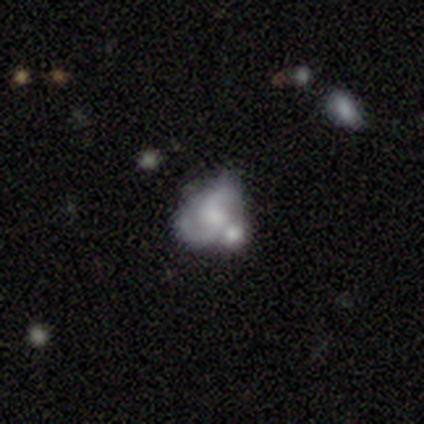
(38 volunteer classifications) A featured or disk galaxy (68%) with no bar (65%), 2 (90%) medium (57%) spiral arms (81%) and a small central bulge (38%).

Vote fractions:
- Smooth or featured? featured or disk: 68% / smooth: 21% / star or artifact: 11%
- Edge-on disk? no: 100% / yes: 0%
- Bar? no: 65% / weak: 31% / strong: 4%
- Spiral arms? yes: 81% / no: 19%
- Spiral winding? medium: 57% / loose: 38% / tight: 5%
- Spiral arm count? 2: 90% / 1: 5% / 3: 5% / 4: 0% / more than 4: 0% / can't tell: 0%
- Bulge size? small: 38% / moderate: 23% / none: 23% / large: 12% / dominant: 4%
- Merging? none: 35% (tied) / merger: 35% (tied) / minor disturbance: 26% / major disturbance: 3%